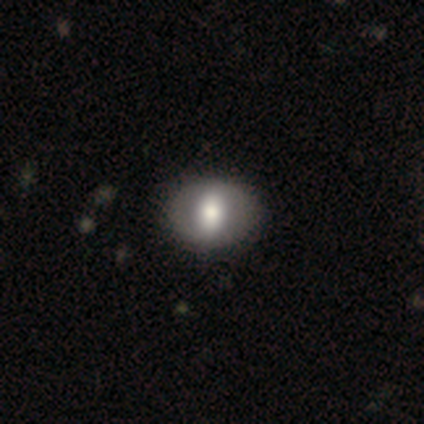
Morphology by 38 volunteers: Smooth or featured? 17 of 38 (45%, tied with featured or disk) said smooth. How rounded? 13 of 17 (76%) said in between. Merging? 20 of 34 (59%) said none.